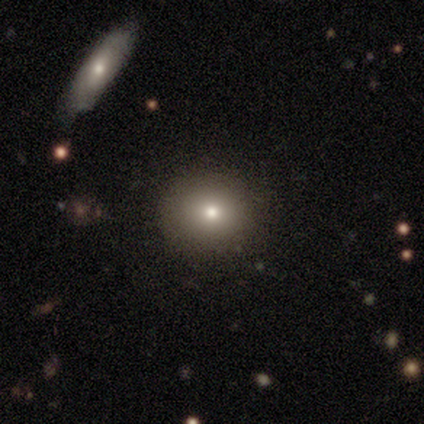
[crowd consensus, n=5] A featured or disk galaxy (60%) with a strong bar (50%, tied with no), 4 (100%) tight (100%) spiral arms (50%, tied with no) and a moderate central bulge (50%, tied with small). Merging: none (80%).